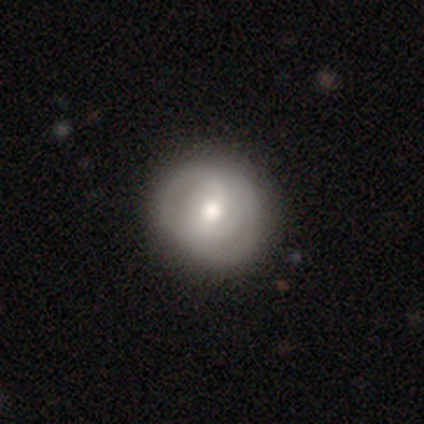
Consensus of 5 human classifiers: smooth_or_featured: featured or disk (p=0.60) [alt: smooth p=0.40]
disk_edge_on: no (p=1.00)
bar: weak (p=0.67) [alt: no p=0.33]
has_spiral_arms: yes (p=1.00)
spiral_winding: tight (p=0.67) [alt: medium p=0.33]
spiral_arm_count: can't tell (p=0.67) [alt: 3 p=0.33]
bulge_size: moderate (p=1.00)
merging: none (p=0.60) [alt: minor disturbance p=0.40]